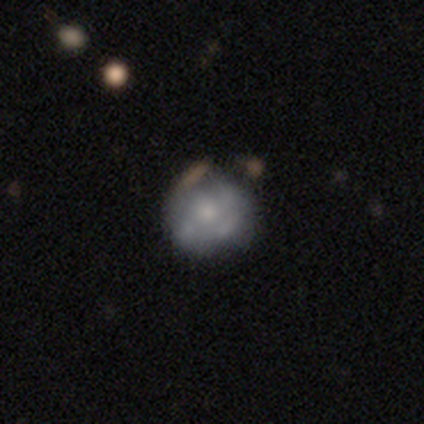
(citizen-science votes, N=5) Overall: featured or disk (80%). Edge-on disk: no (100%). Bar: no (100%). Spiral arms: no (100%). Bulge size: small (50%; moderate 25%). Merging: none (60%; major disturbance 20%).